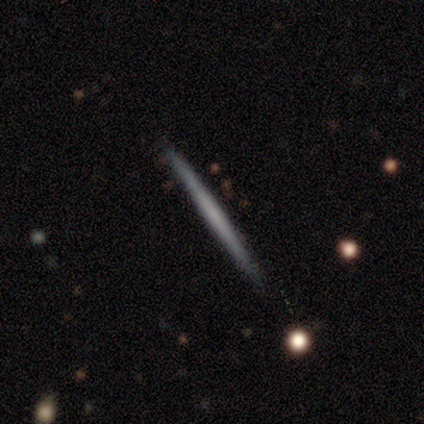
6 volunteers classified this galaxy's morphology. Smooth or featured? 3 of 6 (50%, tied with featured or disk) said smooth. How rounded? 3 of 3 (100%) said cigar-shaped. Merging? 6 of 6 (100%) said none.